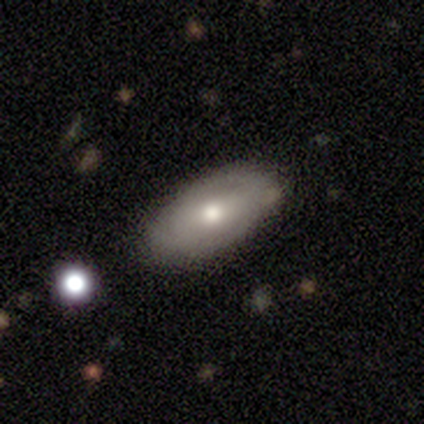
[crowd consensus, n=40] smooth 55%, featured or disk 35%, star or artifact 10%. Down the decision tree: how rounded — in between (82%); merging — none (67%).